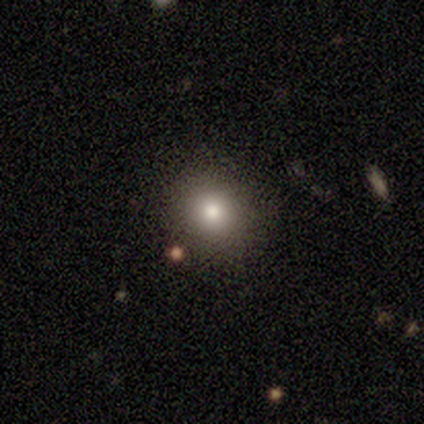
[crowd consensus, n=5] Smooth or featured?
  - smooth: 100% *
  - featured or disk: 0%
  - star or artifact: 0%
How rounded?
  - round: 80% *
  - in between: 20%
  - cigar-shaped: 0%
Merging?
  - none: 60% *
  - minor disturbance: 20%
  - merger: 20%
  - major disturbance: 0%